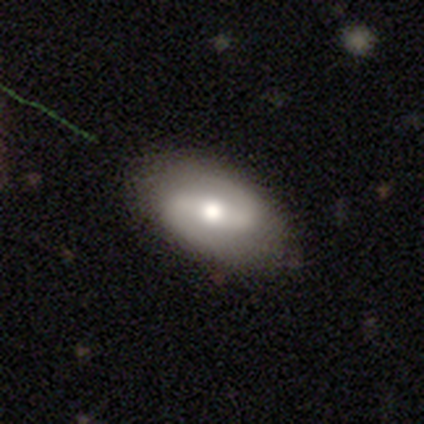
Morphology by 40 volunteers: type=featured or disk (80%); edge-on=no (97%); bar=strong (48%); spiral arms=yes (94%); winding=medium (66%); arm count=2 (100%); bulge=moderate (74%); merging=none (82%).